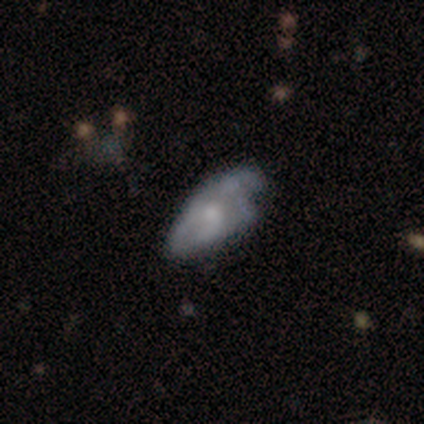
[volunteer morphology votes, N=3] featured or disk 67%, star or artifact 33%, smooth 0%. Down the decision tree: edge-on disk — no (100%); bar — no (100%); spiral arms — yes (50%, tied with no); spiral arm count — can't tell (100%); spiral winding — tight (100%); bulge size — moderate (50%, tied with small); merging — minor disturbance (100%).